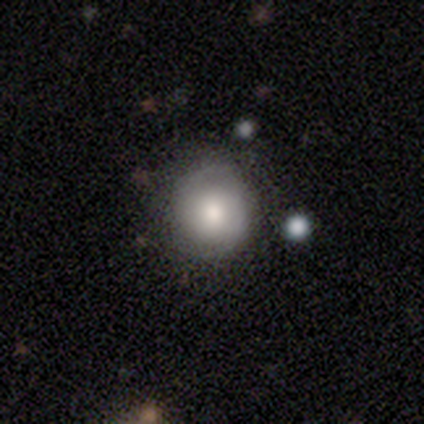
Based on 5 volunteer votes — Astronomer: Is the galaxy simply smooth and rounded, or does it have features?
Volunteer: smooth — 60% (runner-up: featured or disk, 40%).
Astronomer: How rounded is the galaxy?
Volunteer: round — 100%.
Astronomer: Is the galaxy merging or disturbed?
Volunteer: none — 100%.